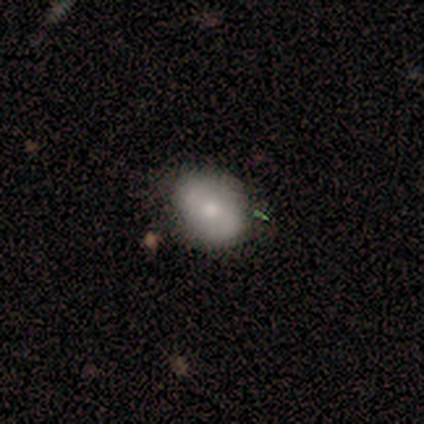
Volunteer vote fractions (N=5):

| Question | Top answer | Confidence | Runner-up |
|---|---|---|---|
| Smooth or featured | smooth | 40% | tied: featured or disk (40%) |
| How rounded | round | 50% | tied: in between (50%) |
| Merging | none | 75% | minor disturbance (25%) |